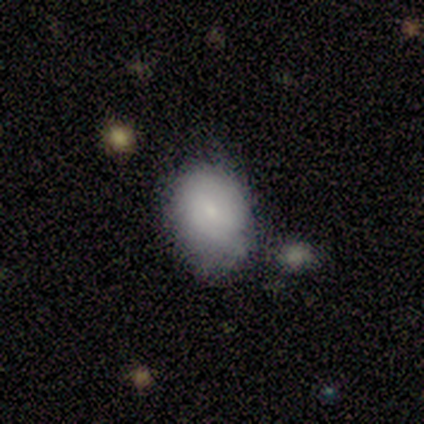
Smooth or featured? 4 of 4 (100%) said smooth. How rounded? 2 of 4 (50%, tied with in between) said round. Merging? 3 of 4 (75%) said none.